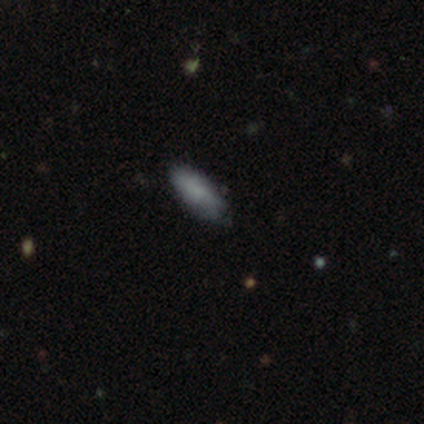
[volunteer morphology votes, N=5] smooth-or-featured: smooth: 100% | featured or disk: 0% | star or artifact: 0%
  how-rounded: in between: 80% | cigar-shaped: 20% | round: 0%
  merging: none: 80% | minor disturbance: 20% | major disturbance: 0% | merger: 0%